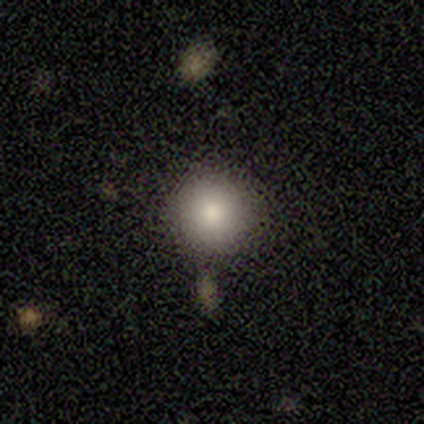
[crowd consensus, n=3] star or artifact 67%, smooth 33%, featured or disk 0%.